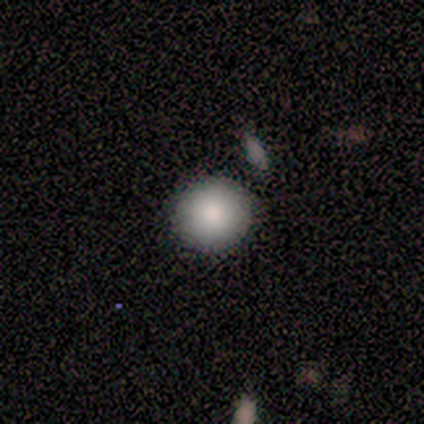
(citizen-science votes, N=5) smooth 80%, featured or disk 20%, star or artifact 0%. Down the decision tree: how rounded — round (100%); merging — none (100%).